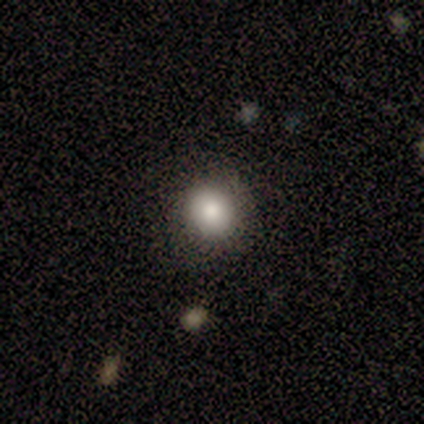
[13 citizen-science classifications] Morphology: type=smooth (85%); roundness=round (82%); merging=none (83%).